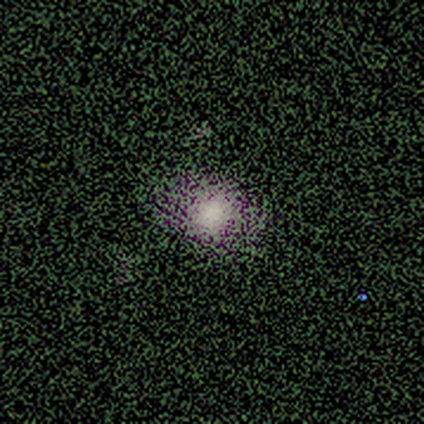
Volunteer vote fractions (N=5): This appears to be a smooth galaxy with no disk features (60%) that is round (67%). Merging: minor disturbance (67%).